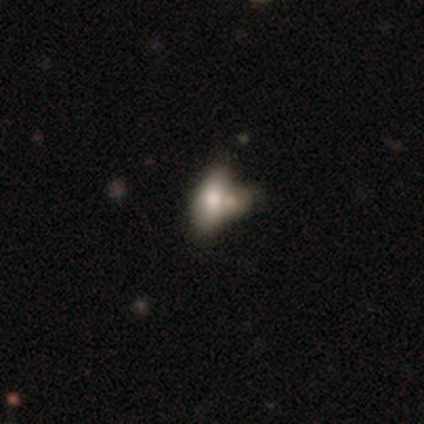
Smooth or featured: smooth — 100%
How rounded: in between — 100%
Merging: merger — 80% (none — 20%)